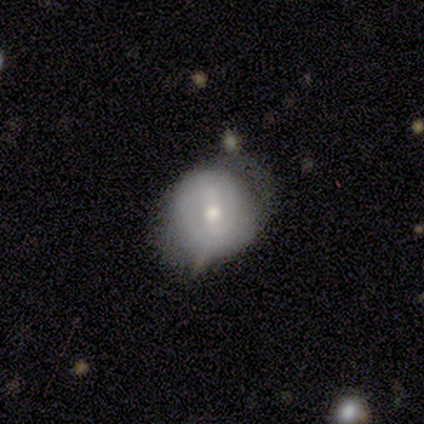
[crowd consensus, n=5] This appears to be a smooth galaxy with no disk features (40%, tied with featured or disk) that is in between round and cigar-shaped (100%). Merging: minor disturbance (75%).